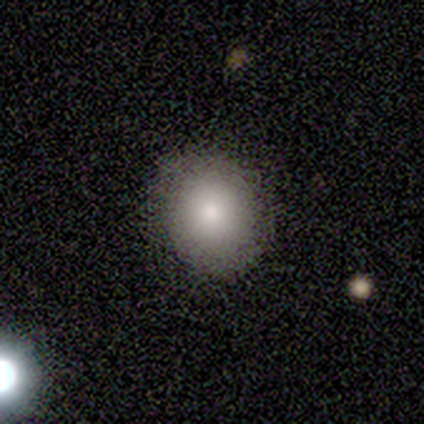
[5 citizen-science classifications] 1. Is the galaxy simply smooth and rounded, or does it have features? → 80% smooth, 20% star or artifact, 0% featured or disk.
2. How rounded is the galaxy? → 100% round, 0% in between, 0% cigar-shaped.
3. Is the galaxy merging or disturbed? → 100% none, 0% minor disturbance, 0% major disturbance, 0% merger.